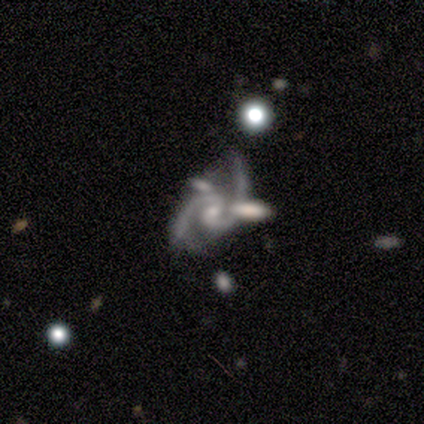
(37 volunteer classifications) A featured or disk galaxy (89%) with a weak bar (56%), 2 (100%) medium (68%) spiral arms (97%) and a small central bulge (66%).

Vote fractions:
- Smooth or featured? featured or disk: 89% / star or artifact: 8% / smooth: 3%
- Edge-on disk? no: 97% / yes: 3%
- Bar? weak: 56% / no: 38% / strong: 6%
- Spiral arms? yes: 97% / no: 3%
- Spiral winding? medium: 68% / loose: 32% / tight: 0%
- Spiral arm count? 2: 100% / 1: 0% / 3: 0% / 4: 0% / more than 4: 0% / can't tell: 0%
- Bulge size? small: 66% / moderate: 22% / none: 12% / dominant: 0% / large: 0%
- Merging? none: 59% / merger: 21% / minor disturbance: 12% / major disturbance: 9%